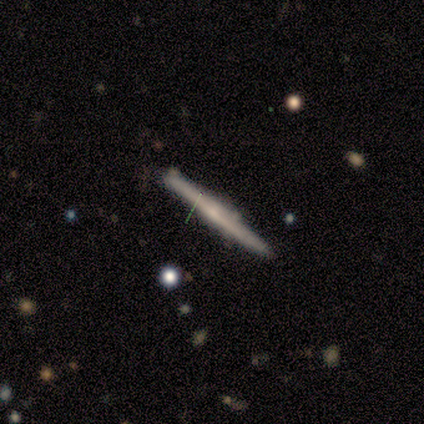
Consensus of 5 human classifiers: This is likely a smooth galaxy (60%). How rounded: clearly cigar-shaped (100%). Merging: clearly none (100%).